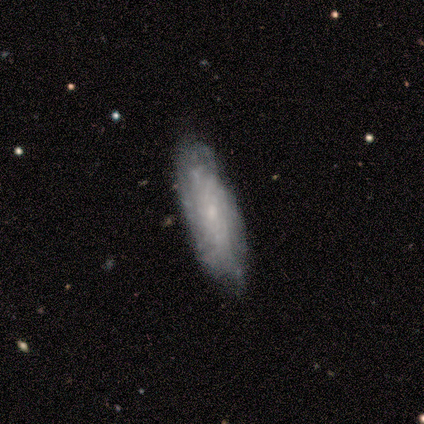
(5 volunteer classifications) Volunteers were most divided on "how rounded": in between: 60%, cigar-shaped: 40%, round: 0%. More confident: smooth or featured — smooth (100%); merging — none (60%).